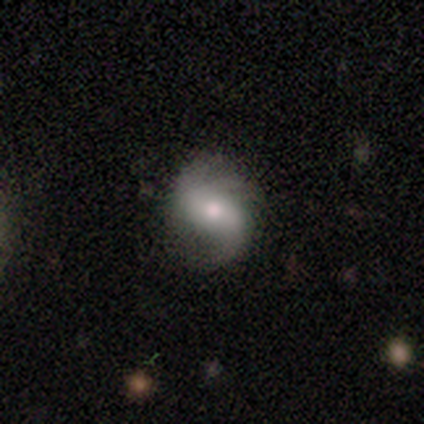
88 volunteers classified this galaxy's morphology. A featured or disk galaxy (68%) with a weak bar (39%), 2 (63%) loose (57%) spiral arms (92%) and a moderate central bulge (58%). Merging: none (79%).